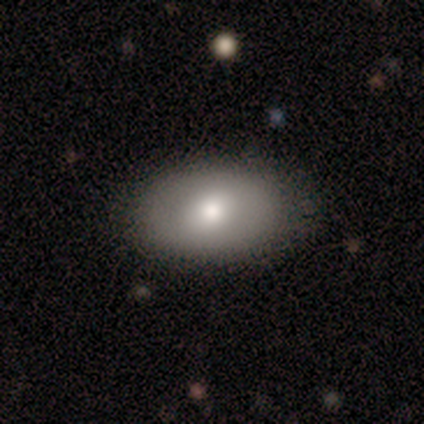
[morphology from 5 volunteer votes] This appears to be a smooth galaxy with no disk features (80%) that is in between round and cigar-shaped (100%). Merging: none (100%).